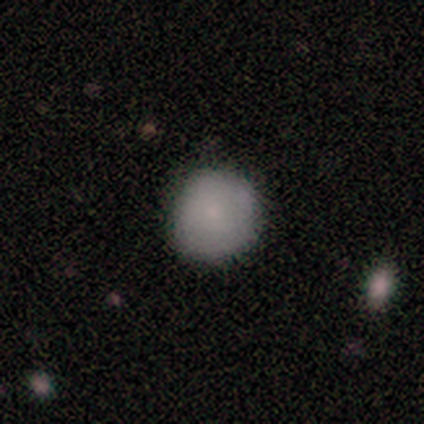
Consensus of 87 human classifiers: Overall: smooth (87%). How rounded: round (92%). Merging: none (85%).